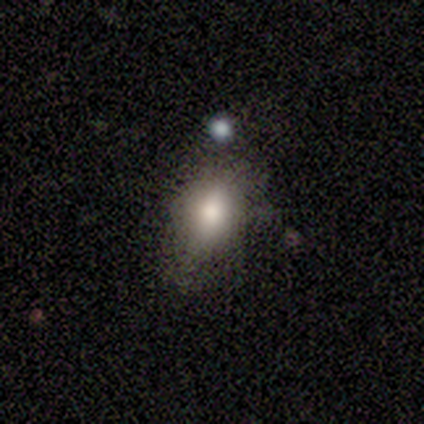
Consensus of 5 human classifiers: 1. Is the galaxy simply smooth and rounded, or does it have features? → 80% smooth, 20% star or artifact, 0% featured or disk.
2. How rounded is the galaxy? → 50% round (tied), 50% in between (tied), 0% cigar-shaped.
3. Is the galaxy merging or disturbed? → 100% none, 0% minor disturbance, 0% major disturbance, 0% merger.